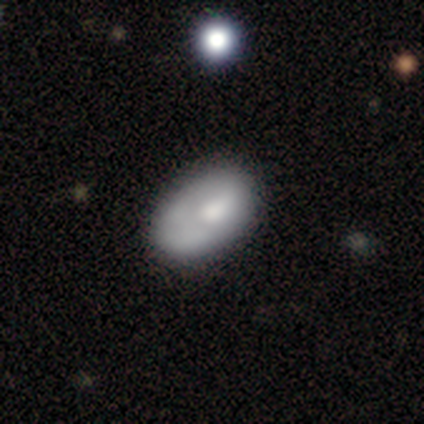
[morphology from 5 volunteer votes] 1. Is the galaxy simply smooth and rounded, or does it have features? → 100% smooth, 0% featured or disk, 0% star or artifact.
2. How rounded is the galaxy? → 80% in between, 20% round, 0% cigar-shaped.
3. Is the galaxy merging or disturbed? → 80% none, 20% merger, 0% minor disturbance, 0% major disturbance.